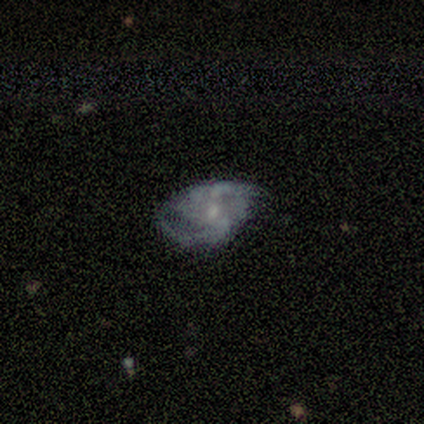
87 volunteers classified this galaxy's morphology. Smooth or featured?
  - featured or disk: 84% *
  - smooth: 8%
  - star or artifact: 8%
Edge-on disk?
  - no: 99% *
  - yes: 1%
Bar?
  - no: 62% *
  - weak: 33%
  - strong: 4%
Spiral arms?
  - yes: 89% *
  - no: 11%
Spiral winding?
  - medium: 47% *
  - tight: 38%
  - loose: 16%
Spiral arm count?
  - 2: 45% *
  - can't tell: 23%
  - 4: 16%
  - 3: 9%
  - more than 4: 5%
  - 1: 2%
Bulge size?
  - small: 67% *
  - moderate: 25%
  - none: 7%
  - large: 1%
  - dominant: 0%
Merging?
  - none: 48% *
  - minor disturbance: 41%
  - major disturbance: 10%
  - merger: 1%